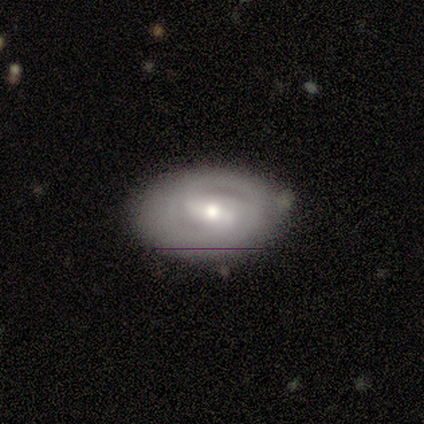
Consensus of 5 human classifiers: Morphology: type=featured or disk (80%); edge-on=no (100%); bar=weak (100%); spiral arms=yes (75%); winding=tight (100%); arm count=2 (67%); bulge=moderate (75%); merging=none (100%).